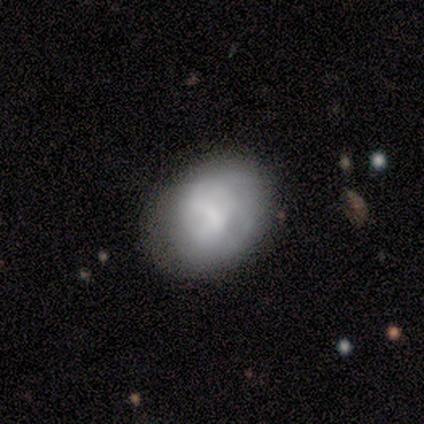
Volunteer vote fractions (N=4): A smooth galaxy with no disk features (50%, tied with featured or disk) that is in between round and cigar-shaped (100%). Merging: none (75%).